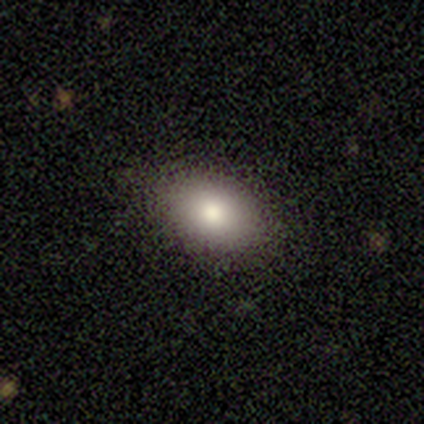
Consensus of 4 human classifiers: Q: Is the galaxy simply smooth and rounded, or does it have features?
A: smooth — 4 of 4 (100%).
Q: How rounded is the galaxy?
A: in between — 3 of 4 (75%).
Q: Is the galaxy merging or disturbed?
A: none — 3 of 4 (75%).